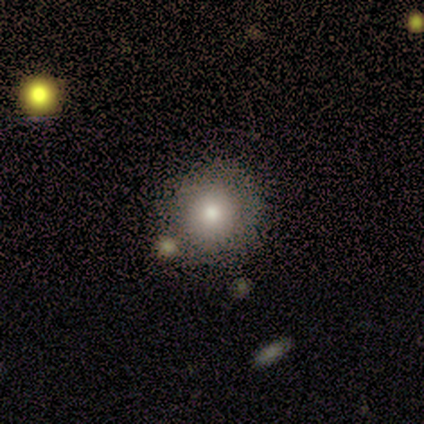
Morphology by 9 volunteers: This is clearly a smooth galaxy (89%). How rounded: clearly round (100%). Merging: likely none (78%).